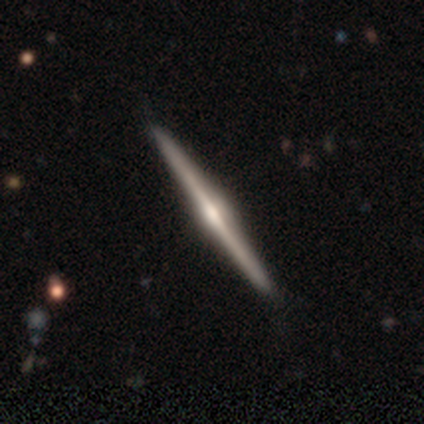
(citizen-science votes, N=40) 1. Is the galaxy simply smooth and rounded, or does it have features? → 90% featured or disk, 10% smooth, 0% star or artifact.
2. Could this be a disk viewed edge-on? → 100% yes, 0% no.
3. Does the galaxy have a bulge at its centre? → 78% rounded, 11% boxy, 11% none.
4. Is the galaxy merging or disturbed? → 92% none, 5% minor disturbance, 2% major disturbance, 0% merger.